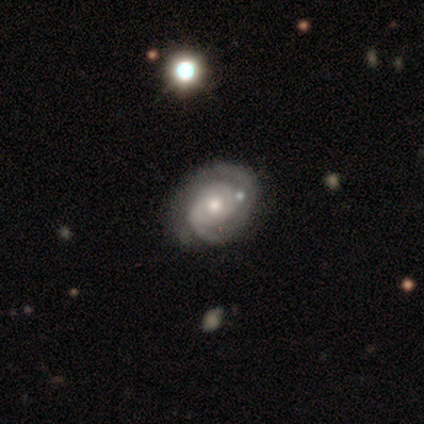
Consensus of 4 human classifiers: This appears to be a featured or disk galaxy (75%) with no bar (67%), 3 (50%, tied with can't tell) tight (50%, tied with medium) spiral arms (67%) and a moderate central bulge (67%). Merging: none (100%).